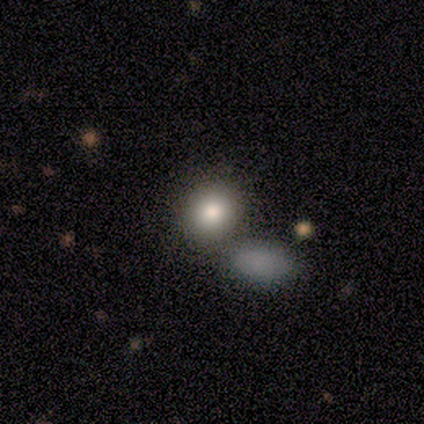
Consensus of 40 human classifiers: A smooth galaxy with no disk features (80%) that is round (66%).

Vote fractions:
- Smooth or featured? smooth: 80% / featured or disk: 15% / star or artifact: 5%
- How rounded? round: 66% / in between: 34% / cigar-shaped: 0%
- Merging? merger: 47% / none: 42% / minor disturbance: 3% / major disturbance: 0%